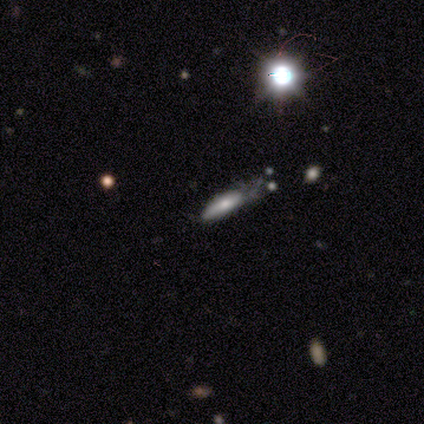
Overall: smooth (60%; featured or disk 40%). How rounded: in between (67%; cigar-shaped 33%). Merging: minor disturbance (40%, tied with major disturbance).